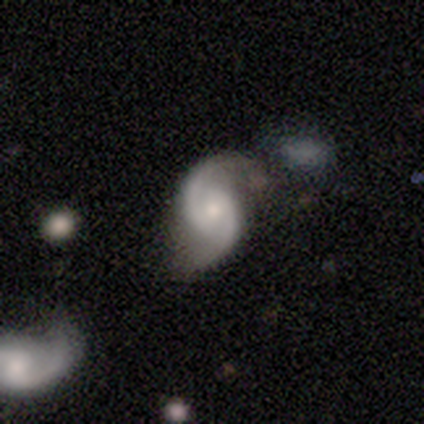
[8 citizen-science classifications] A featured or disk galaxy (100%) with a weak bar (50%, tied with no), 2 (100%) tight (38%, tied with medium) spiral arms (100%) and a moderate central bulge (50%). Merging: none (62%).